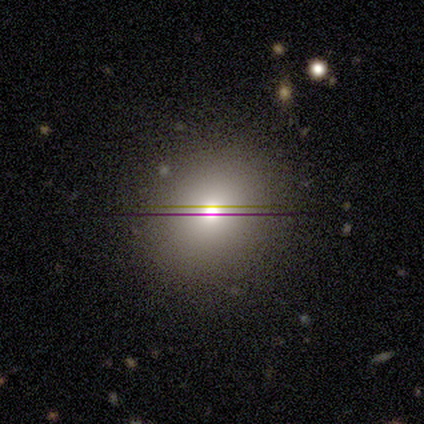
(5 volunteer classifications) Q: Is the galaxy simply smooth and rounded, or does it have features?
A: star or artifact — 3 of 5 (60%).